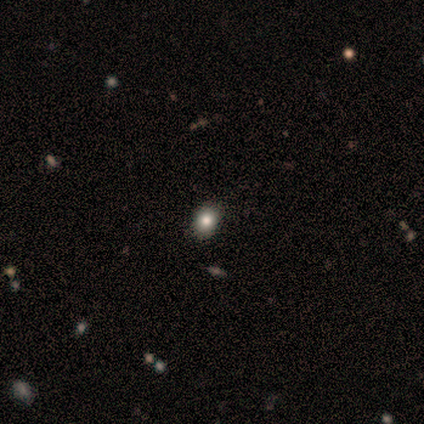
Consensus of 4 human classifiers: This is possibly a smooth galaxy (50%, tied with star or artifact). How rounded: clearly round (100%). Merging: clearly none (100%).